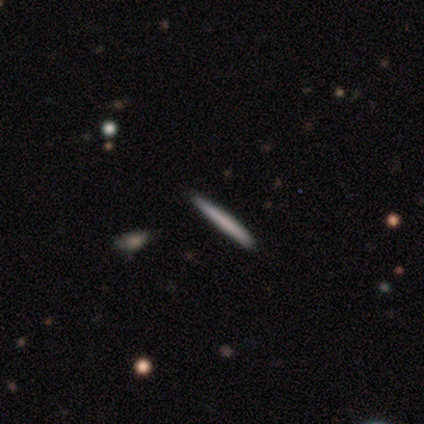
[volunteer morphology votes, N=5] Smooth or featured? 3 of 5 (60%) said smooth. How rounded? 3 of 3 (100%) said cigar-shaped. Merging? 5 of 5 (100%) said none.